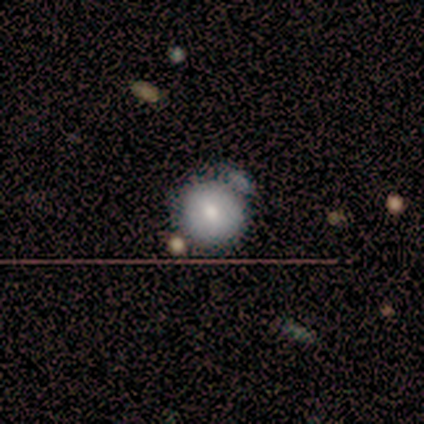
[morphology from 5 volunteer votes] This is likely a smooth galaxy (60%). How rounded: clearly round (100%). Merging: possibly minor disturbance (50%).